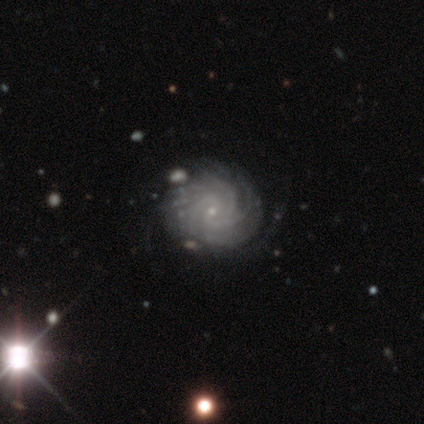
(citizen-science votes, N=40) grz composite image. It shows a featured or disk galaxy (100%) with no bar (72%), more than 4 (33%) tight (69%) spiral arms (100%) and a small central bulge (90%). Merging: none (50%).